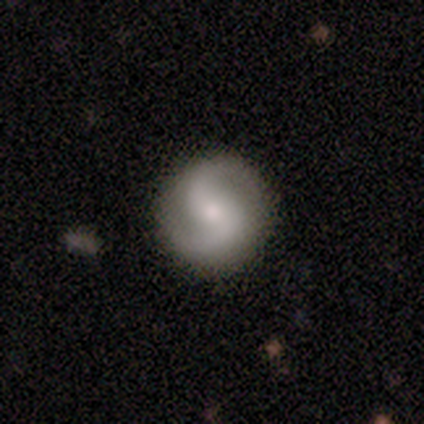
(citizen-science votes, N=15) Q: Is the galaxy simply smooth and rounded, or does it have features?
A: featured or disk — 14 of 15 (93%).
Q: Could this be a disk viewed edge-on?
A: no — 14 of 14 (100%).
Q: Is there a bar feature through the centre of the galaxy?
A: no — 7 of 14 (50%).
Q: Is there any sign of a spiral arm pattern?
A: yes — 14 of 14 (100%).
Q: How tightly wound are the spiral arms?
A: loose — 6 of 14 (43%).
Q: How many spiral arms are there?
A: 2 — 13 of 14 (93%).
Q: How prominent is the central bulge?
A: small — 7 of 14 (50%).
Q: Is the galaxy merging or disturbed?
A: none — 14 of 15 (93%).